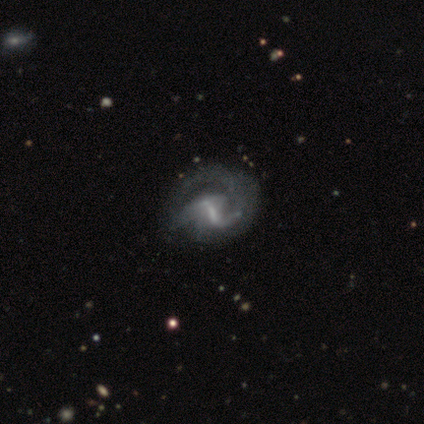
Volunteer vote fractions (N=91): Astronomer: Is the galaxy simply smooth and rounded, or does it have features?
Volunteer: featured or disk — 90%.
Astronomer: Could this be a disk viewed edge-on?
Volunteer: no — 96%.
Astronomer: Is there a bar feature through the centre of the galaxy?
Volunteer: weak — 49% (runner-up: strong, 38%).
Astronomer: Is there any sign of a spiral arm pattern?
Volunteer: yes — 78%.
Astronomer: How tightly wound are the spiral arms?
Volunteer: loose — 44% (runner-up: medium, 40%).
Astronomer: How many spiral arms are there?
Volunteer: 2 — 52%.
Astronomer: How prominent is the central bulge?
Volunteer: small — 46% (runner-up: none, 32%).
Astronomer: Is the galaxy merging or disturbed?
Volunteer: none — 44% (runner-up: major disturbance, 31%).